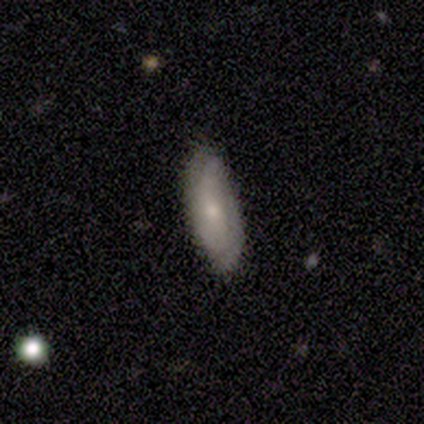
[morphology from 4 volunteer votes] Overall: smooth (50%; featured or disk 25%). How rounded: in between (50%, tied with cigar-shaped). Merging: none (100%).